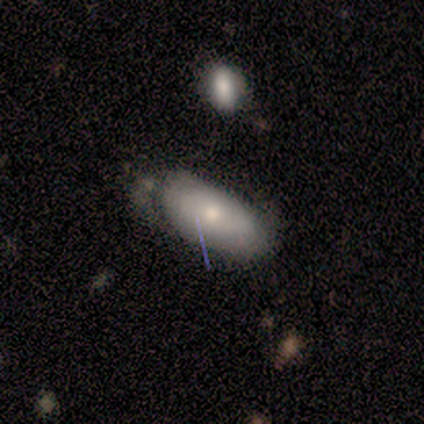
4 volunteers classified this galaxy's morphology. A featured or disk galaxy (50%) with no bar (100%), tight (100%) spiral arms (50%, tied with no) and a moderate central bulge (50%, tied with small). Merging: minor disturbance (67%).